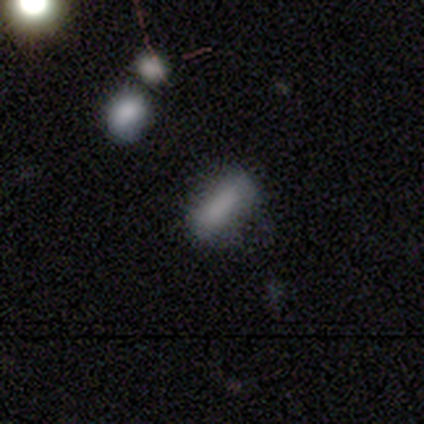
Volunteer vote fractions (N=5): Smooth or featured? smooth (100%)
How rounded? in between (60%)
Merging? none (60%)